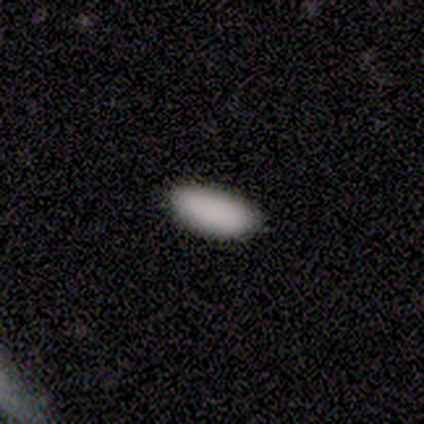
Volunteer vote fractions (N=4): Morphology: type=smooth (100%); roundness=in between (100%); merging=none (75%).